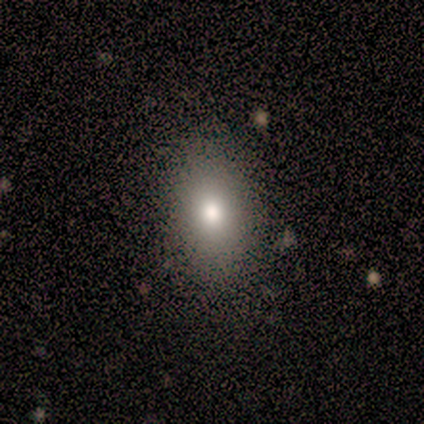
Smooth or featured? 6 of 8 (75%) said smooth. How rounded? 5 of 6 (83%) said in between. Merging? 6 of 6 (100%) said none.